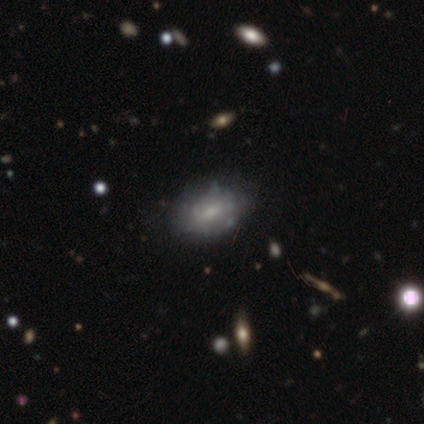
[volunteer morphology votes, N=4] This is likely a smooth galaxy (75%). How rounded: clearly in between (100%). Merging: clearly none (100%).